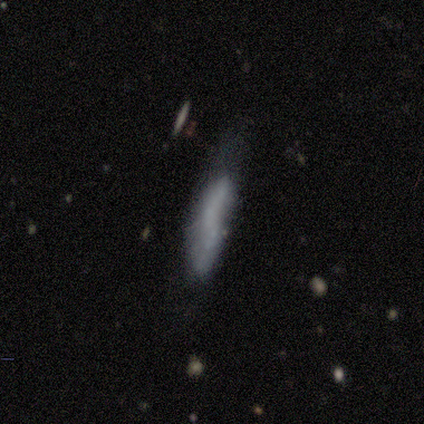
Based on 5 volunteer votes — smooth 100%, featured or disk 0%, star or artifact 0%. Down the decision tree: how rounded — cigar-shaped (100%); merging — minor disturbance (40%, tied with merger).